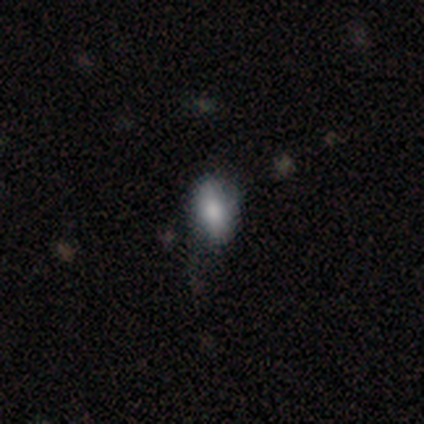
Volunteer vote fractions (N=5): A smooth galaxy with no disk features (60%) that is in between round and cigar-shaped (67%).

Vote fractions:
- Smooth or featured? smooth: 60% / star or artifact: 40% / featured or disk: 0%
- How rounded? in between: 67% / round: 33% / cigar-shaped: 0%
- Merging? none: 100% / minor disturbance: 0% / major disturbance: 0% / merger: 0%